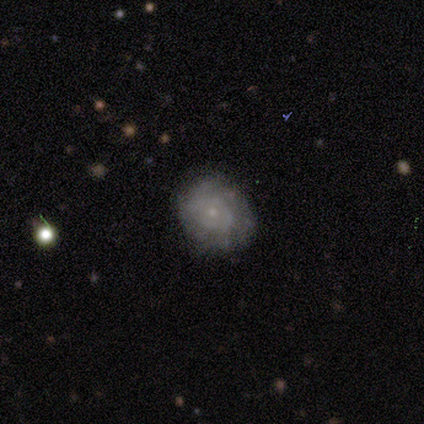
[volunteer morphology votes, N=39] Smooth or featured: featured or disk — 67% (smooth — 28%)
Edge-on disk: no — 96% (yes — 4%)
Bar: no — 100%
Spiral arms: yes — 64% (no — 36%)
Spiral winding: tight — 69% (medium — 25%)
Spiral arm count: can't tell — 81% (more than 4 — 12%)
Bulge size: small — 80% (none — 12%)
Merging: none — 78% (minor disturbance — 19%)